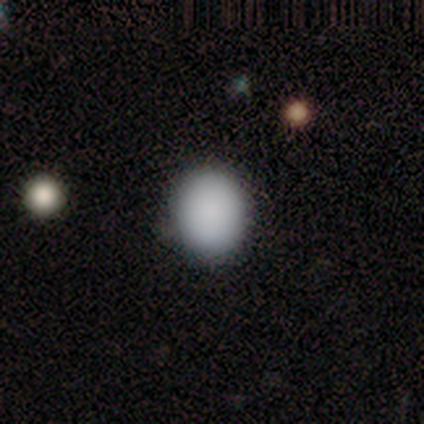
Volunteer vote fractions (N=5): Q: Smooth or featured?
A: smooth (100%)
Q: How rounded?
A: round (80%); runner-up: in between (20%)
Q: Merging?
A: none (100%)